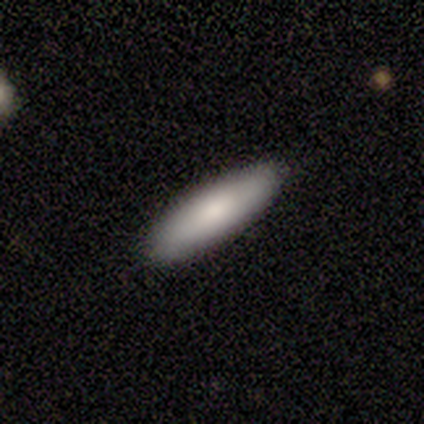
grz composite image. It shows a smooth galaxy with no disk features (75%) that is cigar-shaped (67%). Merging: none (100%).